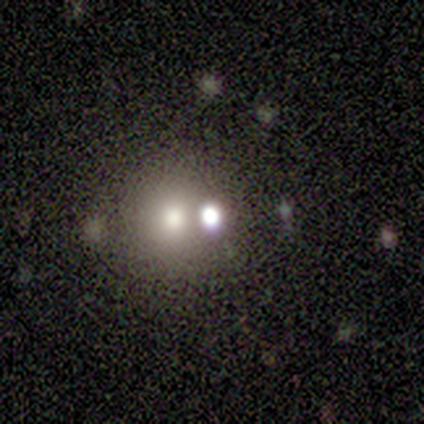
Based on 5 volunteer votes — A smooth galaxy with no disk features (40%, tied with star or artifact) that is round (100%). Merging: none (67%).